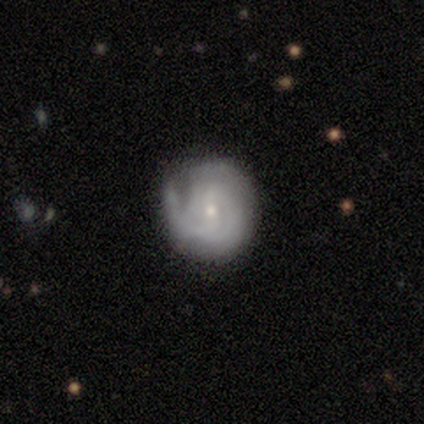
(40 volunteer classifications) Smooth or featured? 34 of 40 (85%) said featured or disk. Edge-on disk? 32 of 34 (94%) said no. Bar? 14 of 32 (44%) said weak. Spiral arms? 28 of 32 (88%) said yes. Spiral winding? 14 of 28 (50%) said tight. Spiral arm count? 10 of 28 (36%) said can't tell. Bulge size? 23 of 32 (72%) said small. Merging? 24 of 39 (62%) said none.